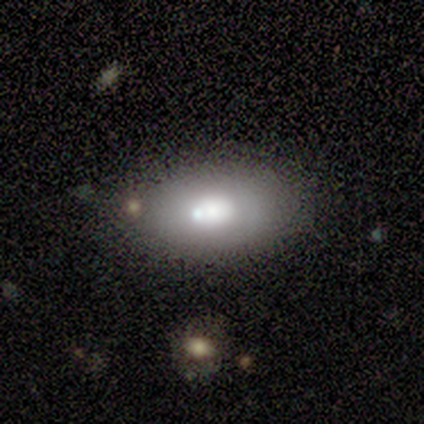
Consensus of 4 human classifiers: Smooth or featured: smooth — 75% (featured or disk — 25%)
How rounded: in between — 100%
Merging: none — 50% (minor disturbance — 25%)